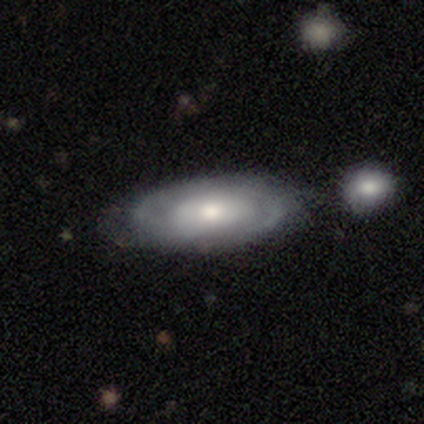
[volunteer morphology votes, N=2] A featured or disk galaxy (100%) viewed edge-on (50%, tied with no) with a rounded central bulge (100%). Merging: none (50%, tied with minor disturbance).